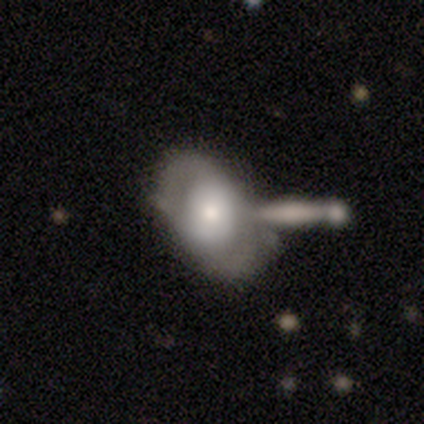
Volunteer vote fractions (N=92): smooth_or_featured: featured or disk (p=0.50) [alt: smooth p=0.41]
disk_edge_on: no (p=0.91) [alt: yes p=0.09]
bar: no (p=0.64) [alt: weak p=0.26]
has_spiral_arms: yes (p=0.67) [alt: no p=0.33]
spiral_winding: medium (p=0.39) [alt: tight p=0.36]
spiral_arm_count: 2 (p=0.82) [alt: can't tell p=0.11]
bulge_size: moderate (p=0.45) [alt: small p=0.29]
merging: merger (p=0.29) [alt: none p=0.26]